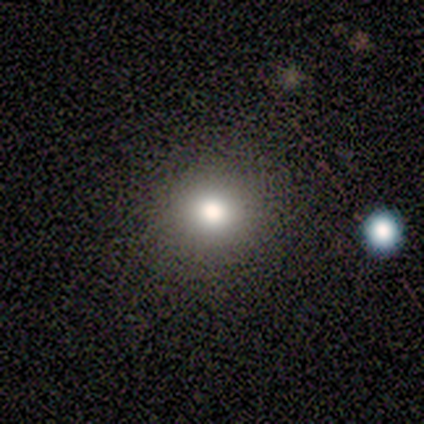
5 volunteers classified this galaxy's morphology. A smooth galaxy with no disk features (60%) that is round (100%).

Vote fractions:
- Smooth or featured? smooth: 60% / featured or disk: 20% / star or artifact: 20%
- How rounded? round: 100% / in between: 0% / cigar-shaped: 0%
- Merging? none: 100% / minor disturbance: 0% / major disturbance: 0% / merger: 0%